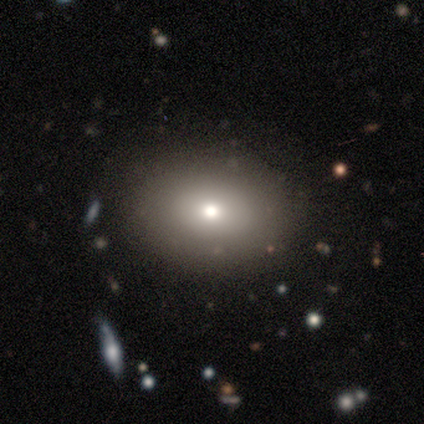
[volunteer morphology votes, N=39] Volunteers were most divided on "smooth or featured": smooth: 77%, star or artifact: 18%, featured or disk: 5%. More confident: how rounded — in between (83%); merging — none (78%).